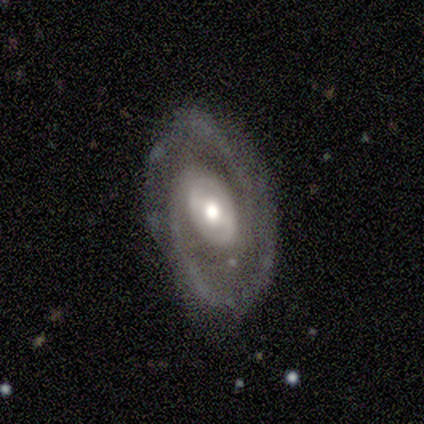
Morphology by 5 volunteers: type=featured or disk (100%); edge-on=no (100%); bar=weak (60%); spiral arms=yes (100%); winding=tight (60%); arm count=2 (80%); bulge=moderate (100%); merging=none (60%).